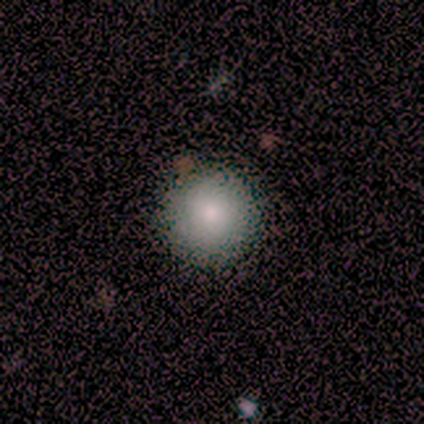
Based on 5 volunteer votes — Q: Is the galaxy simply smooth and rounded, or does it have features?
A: smooth — 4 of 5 (80%).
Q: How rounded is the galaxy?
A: round — 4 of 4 (100%).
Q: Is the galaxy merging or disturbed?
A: none — 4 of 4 (100%).